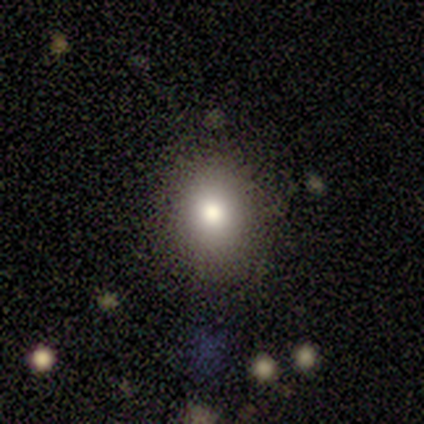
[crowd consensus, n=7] smooth_or_featured: smooth (p=0.57) [alt: featured or disk p=0.43]
how_rounded: round (p=0.75) [alt: in between p=0.25]
merging: none (p=0.71) [alt: minor disturbance p=0.14]